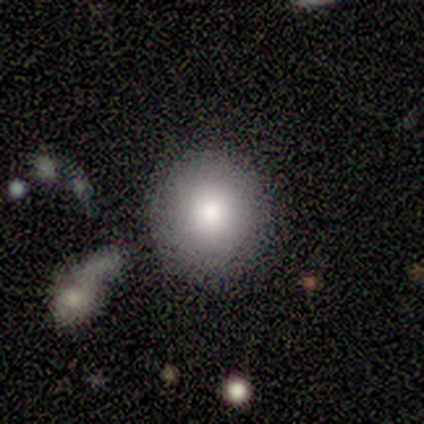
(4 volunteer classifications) Overall: smooth (100%). How rounded: round (75%). Merging: none (75%).